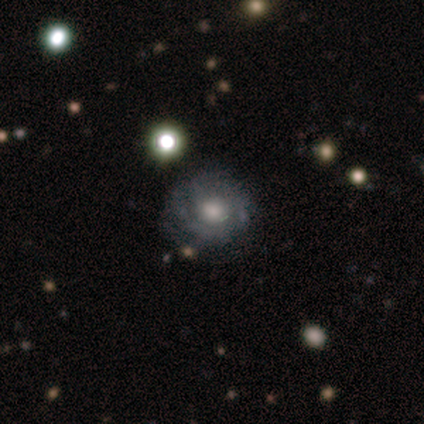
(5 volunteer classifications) Volunteers were most divided on "smooth or featured": smooth: 60%, featured or disk: 20%, star or artifact: 20%. More confident: how rounded — round (100%); merging — none (75%).